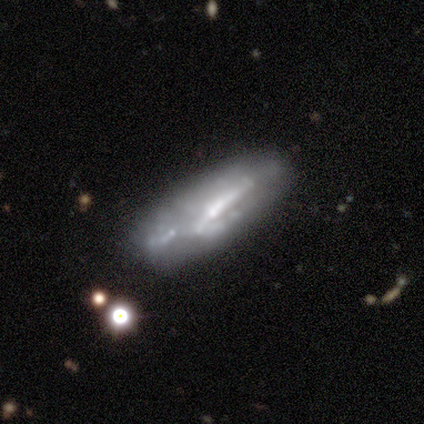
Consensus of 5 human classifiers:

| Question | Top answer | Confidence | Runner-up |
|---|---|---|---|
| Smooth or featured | smooth | 60% | featured or disk (20%) |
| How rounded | cigar-shaped | 67% | in between (33%) |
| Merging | none | 25% | tied: minor disturbance (25%), major disturbance (25%), merger (25%) |